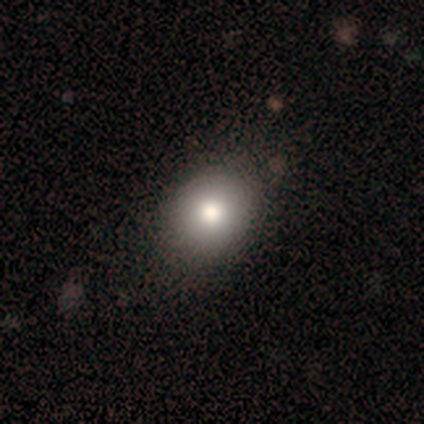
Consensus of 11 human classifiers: Q: Smooth or featured?
A: smooth (100%)
Q: How rounded?
A: round (55%); runner-up: in between (45%)
Q: Merging?
A: none (64%); runner-up: minor disturbance (36%)